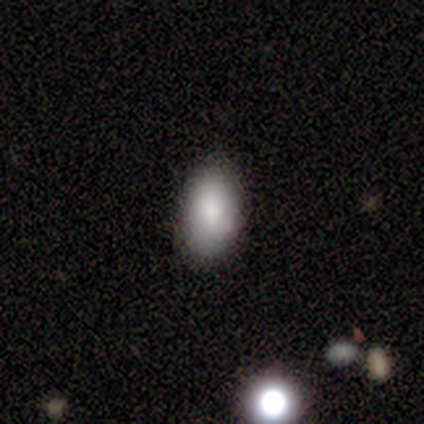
Smooth or featured: smooth — 88% (featured or disk — 7%)
How rounded: in between — 94% (round — 3%)
Merging: none — 90% (minor disturbance — 5%)